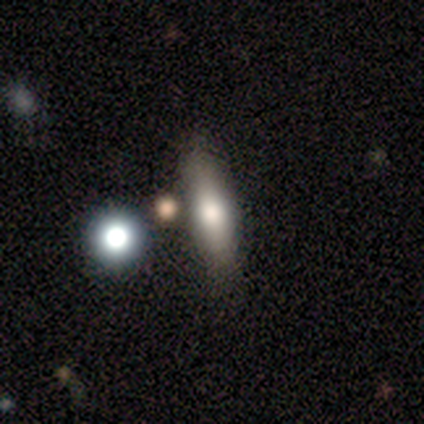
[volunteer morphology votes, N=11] smooth 73%, featured or disk 18%, star or artifact 9%. Down the decision tree: how rounded — cigar-shaped (62%); merging — none (90%).